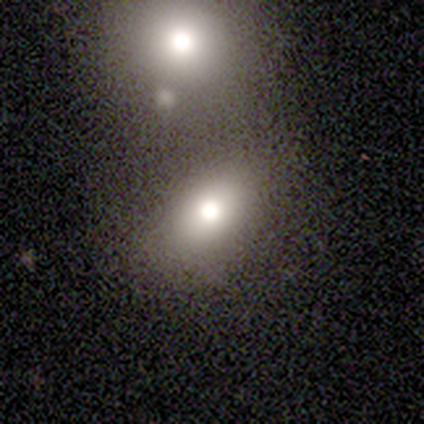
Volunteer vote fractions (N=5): A smooth galaxy with no disk features (80%) that is in between round and cigar-shaped (100%). Merging: merger (60%).